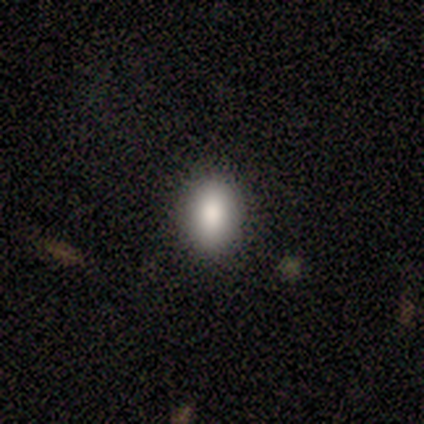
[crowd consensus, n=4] smooth_or_featured: smooth (p=1.00)
how_rounded: in between (p=0.75) [alt: round p=0.25]
merging: none (p=1.00)